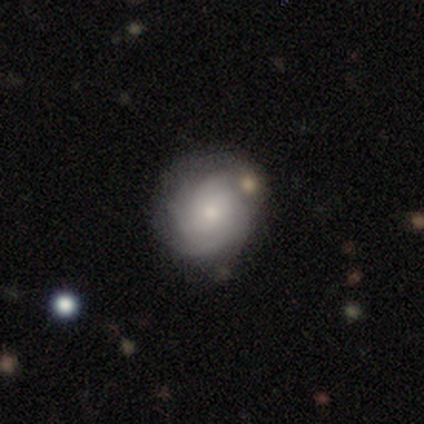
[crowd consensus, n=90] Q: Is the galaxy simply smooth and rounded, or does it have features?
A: featured or disk — 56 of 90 (62%).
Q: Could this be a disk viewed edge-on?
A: no — 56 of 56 (100%).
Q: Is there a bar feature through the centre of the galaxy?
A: no — 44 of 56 (79%).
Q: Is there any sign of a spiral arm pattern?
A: yes — 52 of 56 (93%).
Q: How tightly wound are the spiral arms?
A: tight — 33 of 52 (63%).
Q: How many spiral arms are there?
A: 4 — 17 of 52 (33%).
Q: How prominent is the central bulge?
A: small — 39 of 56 (70%).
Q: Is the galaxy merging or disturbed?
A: none — 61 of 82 (74%).